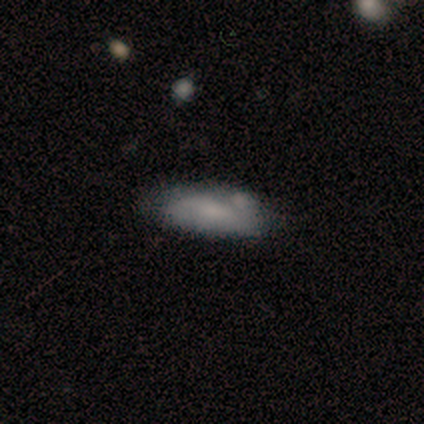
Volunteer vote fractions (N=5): smooth-or-featured: smooth: 80% | featured or disk: 20% | star or artifact: 0%
  how-rounded: cigar-shaped: 75% | in between: 25% | round: 0%
  merging: none: 40% (tied) | minor disturbance: 40% (tied) | merger: 20% | major disturbance: 0%